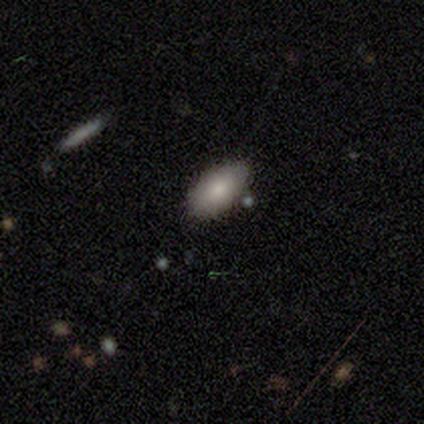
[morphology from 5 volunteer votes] This appears to be a smooth galaxy with no disk features (100%) that is in between round and cigar-shaped (100%). Merging: none (80%).